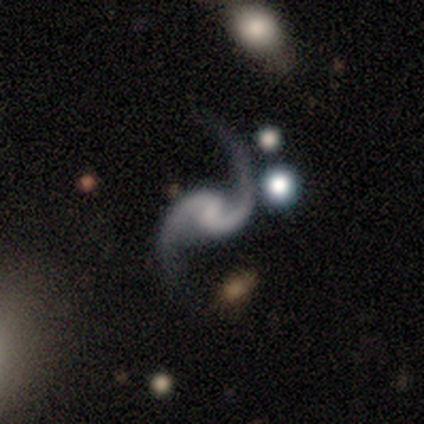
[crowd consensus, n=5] Volunteers were most divided on "bulge size": small: 60%, none: 40%, dominant: 0%, large: 0%, moderate: 0%. More confident: smooth or featured — featured or disk (100%); edge-on disk — no (100%); spiral arms — yes (100%); spiral arm count — 2 (100%); bar — weak (80%); spiral winding — loose (80%); merging — none (80%).